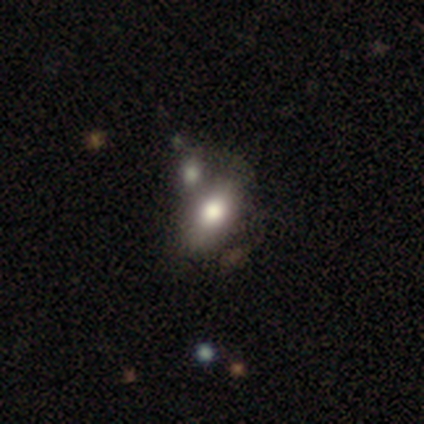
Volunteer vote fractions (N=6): smooth 100%, featured or disk 0%, star or artifact 0%. Down the decision tree: how rounded — in between (100%); merging — merger (50%).